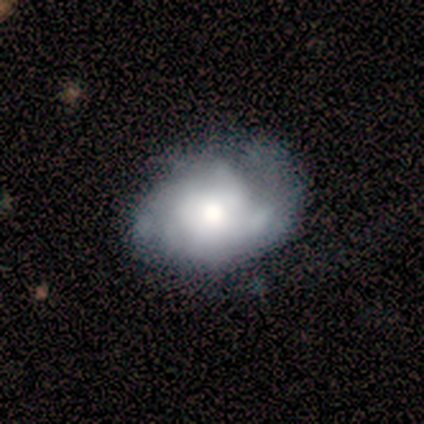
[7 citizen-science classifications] This is clearly a featured or disk galaxy (86%). It is clearly not viewed edge-on (100%). Bar: clearly no (83%). Spiral arm pattern: likely yes (67%). Spiral arm count: likely can't tell (75%). Spiral winding: likely tight (75%). Central bulge: marginally dominant (33%, tied with moderate). Merging: possibly minor disturbance (57%).